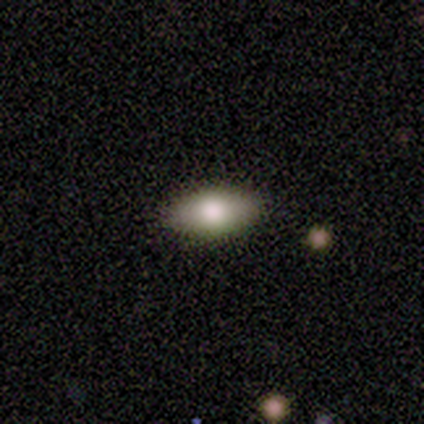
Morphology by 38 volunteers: smooth_or_featured: smooth (p=0.74) [alt: featured or disk p=0.16]
how_rounded: in between (p=0.96) [alt: cigar-shaped p=0.04]
merging: none (p=0.88) [alt: minor disturbance p=0.12]